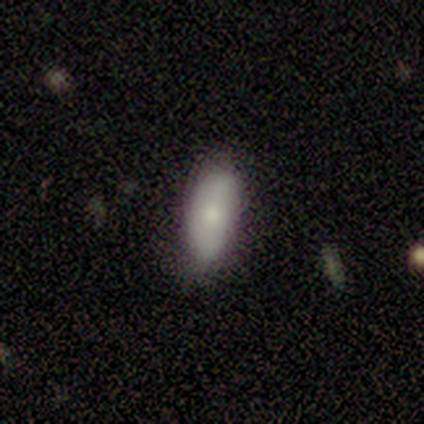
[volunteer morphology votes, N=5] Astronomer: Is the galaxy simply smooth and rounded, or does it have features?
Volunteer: smooth — 80%.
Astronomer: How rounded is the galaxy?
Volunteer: in between — 75%.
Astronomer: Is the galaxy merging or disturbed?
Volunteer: minor disturbance — 60% (runner-up: none, 40%).